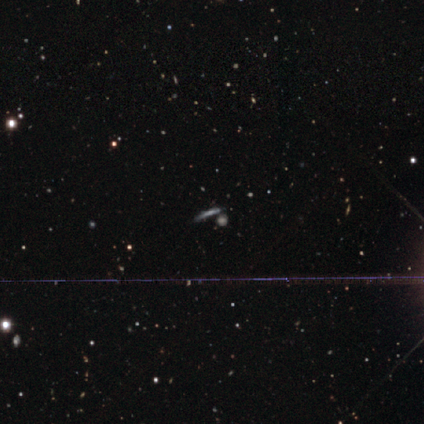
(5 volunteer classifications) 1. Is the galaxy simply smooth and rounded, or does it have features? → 60% featured or disk, 40% star or artifact, 0% smooth.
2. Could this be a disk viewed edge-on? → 67% yes, 33% no.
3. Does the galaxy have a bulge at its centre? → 100% none, 0% boxy, 0% rounded.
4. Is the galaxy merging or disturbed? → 67% none, 33% merger, 0% minor disturbance, 0% major disturbance.